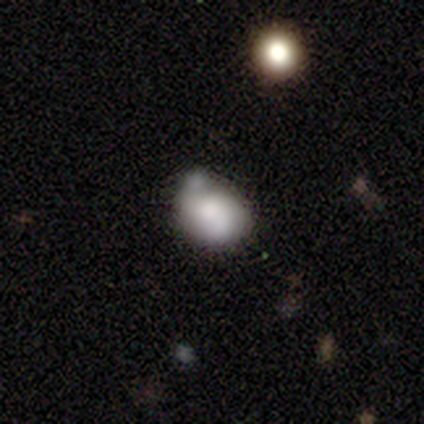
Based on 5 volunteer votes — smooth_or_featured: smooth (p=0.80) [alt: featured or disk p=0.20]
how_rounded: in between (p=0.75) [alt: round p=0.25]
merging: none (p=0.40) [tied with: merger p=0.40]